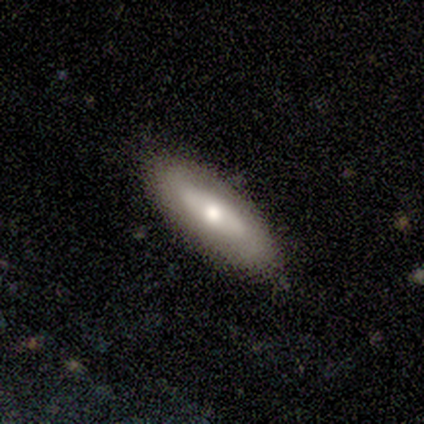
This appears to be a featured or disk galaxy (60%) with no bar (100%), loose (100%) spiral arms (50%, tied with no) and a large central bulge (50%, tied with moderate). Merging: none (80%).